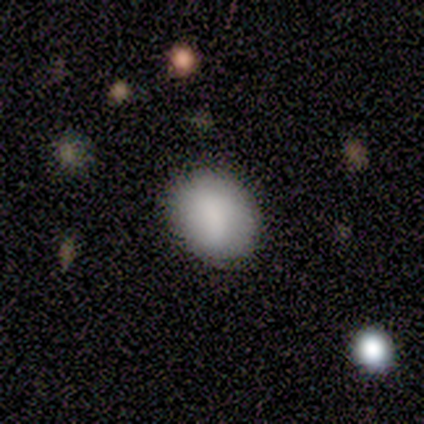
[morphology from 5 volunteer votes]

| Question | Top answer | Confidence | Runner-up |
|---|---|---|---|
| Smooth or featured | smooth | 80% | featured or disk (20%) |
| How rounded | in between | 75% | round (25%) |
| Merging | none | 80% | minor disturbance (20%) |